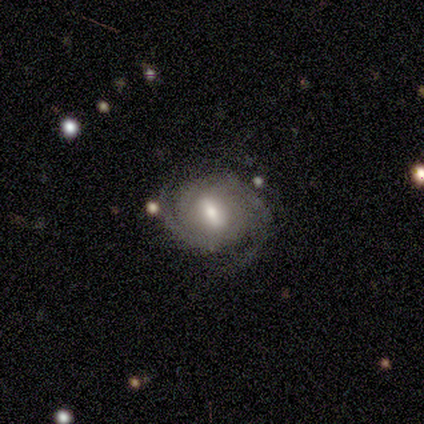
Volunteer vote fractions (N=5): smooth_or_featured: featured or disk (p=1.00)
disk_edge_on: no (p=1.00)
bar: weak (p=0.80) [alt: no p=0.20]
has_spiral_arms: yes (p=1.00)
spiral_winding: tight (p=0.80) [alt: medium p=0.20]
spiral_arm_count: 2 (p=0.40) [tied with: can't tell p=0.40]
bulge_size: moderate (p=1.00)
merging: none (p=0.80) [alt: minor disturbance p=0.20]